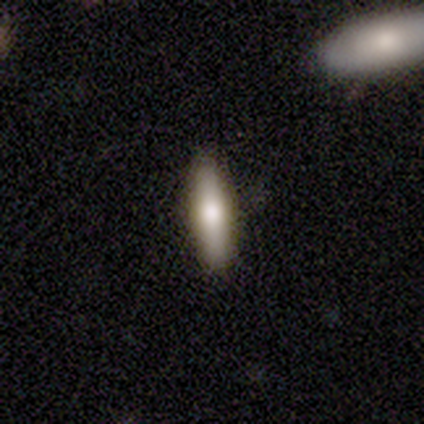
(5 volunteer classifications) Overall: featured or disk (60%; smooth 40%). Edge-on disk: yes (100%). Edge-on bulge: rounded (67%; none 33%). Merging: none (100%).